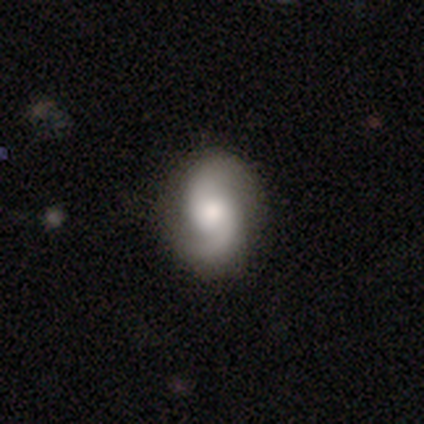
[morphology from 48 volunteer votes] featured or disk 83%, smooth 12%, star or artifact 4%. Down the decision tree: edge-on disk — no (92%); bar — no (70%); spiral arms — yes (95%); spiral arm count — 2 (94%); spiral winding — medium (54%); bulge size — moderate (54%); merging — none (83%).